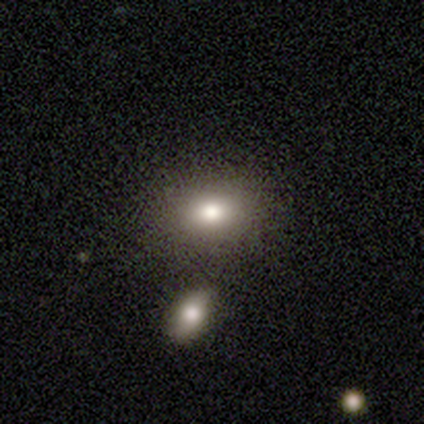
A smooth galaxy with no disk features (100%) that is round (50%, tied with in between).

Vote fractions:
- Smooth or featured? smooth: 100% / featured or disk: 0% / star or artifact: 0%
- How rounded? round: 50% (tied) / in between: 50% (tied) / cigar-shaped: 0%
- Merging? none: 100% / minor disturbance: 0% / major disturbance: 0% / merger: 0%